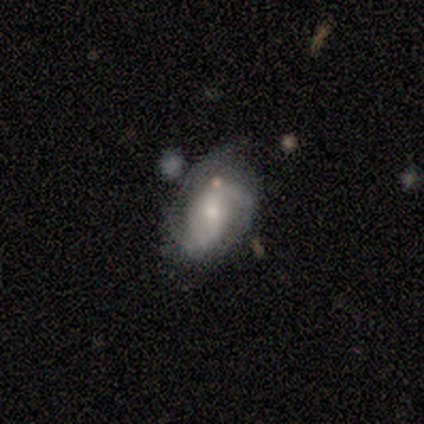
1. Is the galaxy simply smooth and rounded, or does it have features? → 60% featured or disk, 40% smooth, 0% star or artifact.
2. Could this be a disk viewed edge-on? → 100% no, 0% yes.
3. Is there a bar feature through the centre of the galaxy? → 67% weak, 33% strong, 0% no.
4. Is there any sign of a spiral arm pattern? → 100% yes, 0% no.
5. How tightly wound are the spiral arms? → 67% medium, 33% loose, 0% tight.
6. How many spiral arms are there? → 100% 2, 0% 1, 0% 3, 0% 4, 0% more than 4, 0% can't tell.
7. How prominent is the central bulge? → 100% moderate, 0% dominant, 0% large, 0% small, 0% none.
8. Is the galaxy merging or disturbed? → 40% minor disturbance, 20% none, 20% major disturbance, 20% merger.